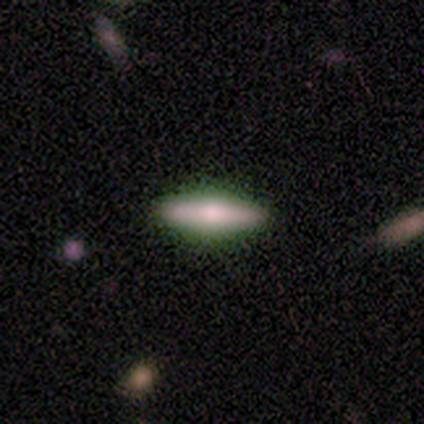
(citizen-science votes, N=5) Smooth or featured? 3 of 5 (60%) said smooth. How rounded? 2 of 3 (67%) said in between. Merging? 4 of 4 (100%) said none.